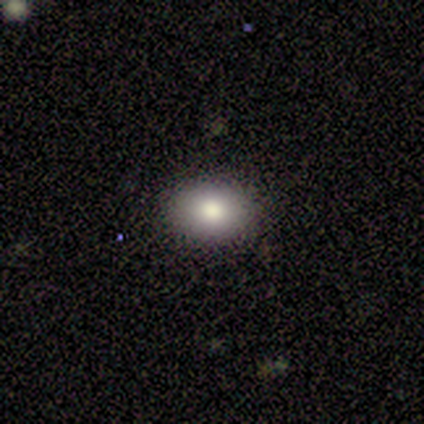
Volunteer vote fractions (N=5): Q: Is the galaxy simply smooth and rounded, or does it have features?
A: smooth — 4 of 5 (80%).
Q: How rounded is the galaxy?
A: in between — 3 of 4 (75%).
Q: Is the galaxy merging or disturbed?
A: none — 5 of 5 (100%).